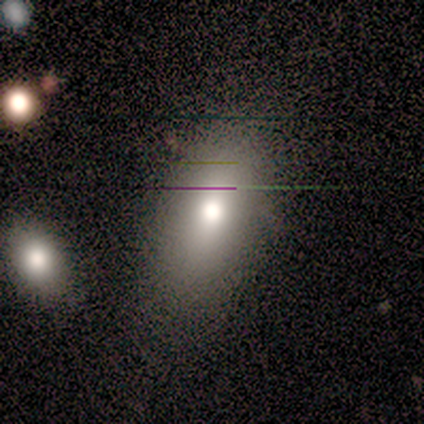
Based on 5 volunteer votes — smooth_or_featured: smooth (p=0.80) [alt: featured or disk p=0.20]
how_rounded: in between (p=1.00)
merging: none (p=0.60) [alt: minor disturbance p=0.40]